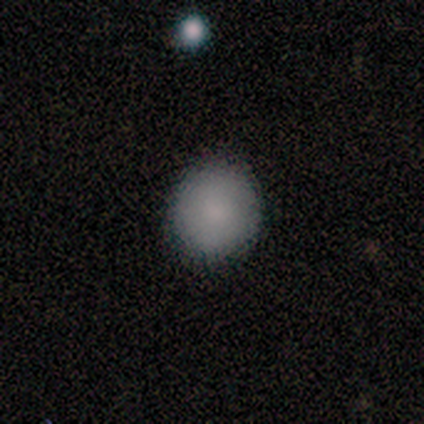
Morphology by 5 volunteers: This appears to be a smooth galaxy with no disk features (100%) that is round (80%). Merging: none (100%).